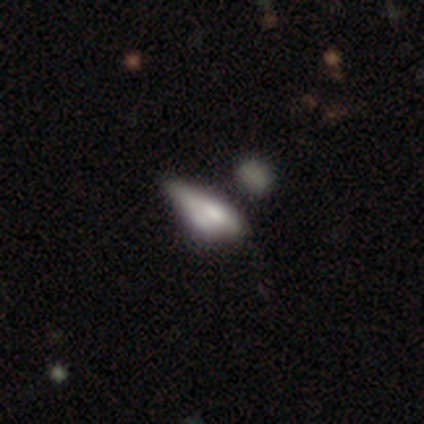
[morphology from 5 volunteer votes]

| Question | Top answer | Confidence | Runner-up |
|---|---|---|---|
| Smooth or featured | smooth | 80% | featured or disk (20%) |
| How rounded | in between | 75% | cigar-shaped (25%) |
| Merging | merger | 60% | none (20%) |